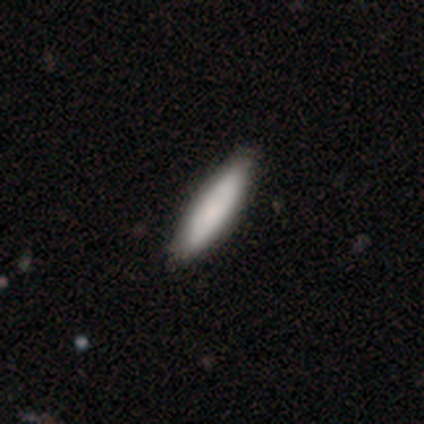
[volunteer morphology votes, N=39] Volunteers were most divided on "how rounded": cigar-shaped: 65%, in between: 35%, round: 0%. More confident: smooth or featured — smooth (87%); merging — none (59%).